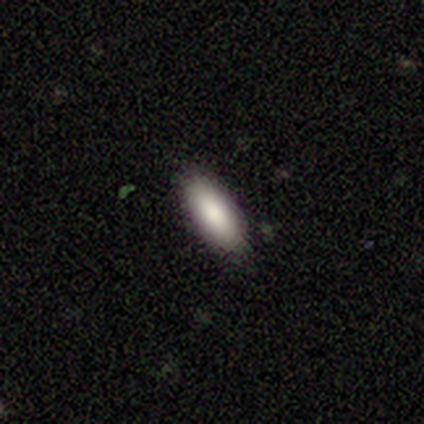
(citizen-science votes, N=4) smooth_or_featured: smooth (p=1.00)
how_rounded: in between (p=0.75) [alt: cigar-shaped p=0.25]
merging: none (p=1.00)